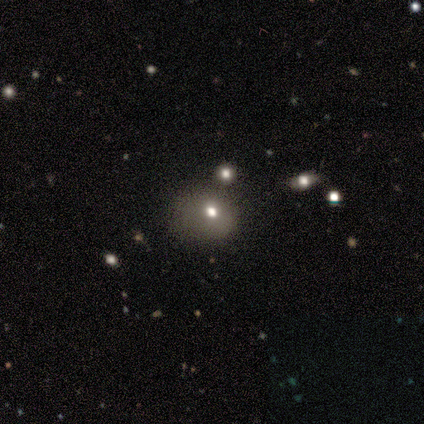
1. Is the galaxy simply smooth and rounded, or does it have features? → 60% smooth, 40% star or artifact, 0% featured or disk.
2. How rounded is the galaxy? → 67% round, 33% in between, 0% cigar-shaped.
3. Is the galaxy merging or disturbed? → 67% none, 33% minor disturbance, 0% major disturbance, 0% merger.